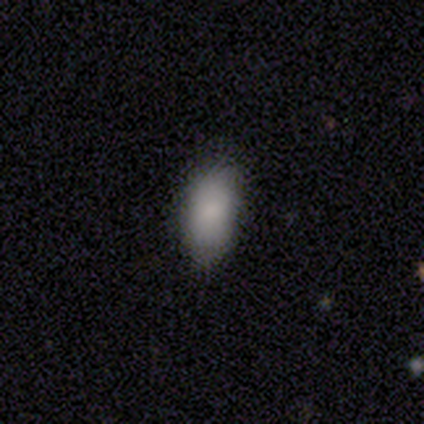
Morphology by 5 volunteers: Overall: smooth (100%). How rounded: in between (80%). Merging: minor disturbance (60%; none 40%).